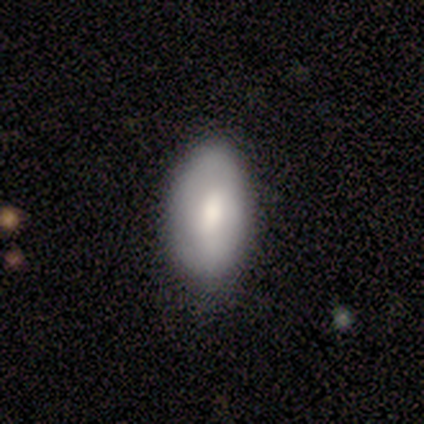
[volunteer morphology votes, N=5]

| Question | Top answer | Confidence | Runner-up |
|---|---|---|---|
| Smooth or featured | smooth | 100% | — |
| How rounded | in between | 100% | — |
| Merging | none | 60% | minor disturbance (40%) |